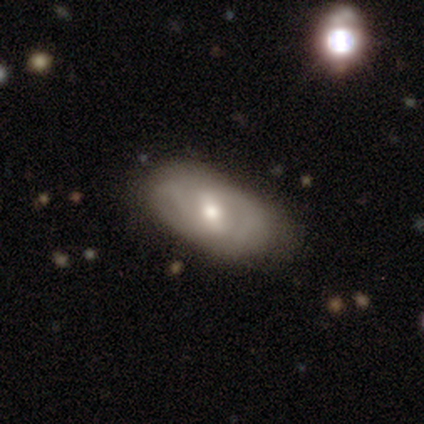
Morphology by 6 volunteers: smooth_or_featured: featured or disk (p=0.83) [alt: smooth p=0.17]
disk_edge_on: no (p=1.00)
bar: weak (p=1.00)
has_spiral_arms: no (p=0.60) [alt: yes p=0.40]
bulge_size: moderate (p=0.60) [alt: large p=0.20]
merging: none (p=0.67) [alt: minor disturbance p=0.33]